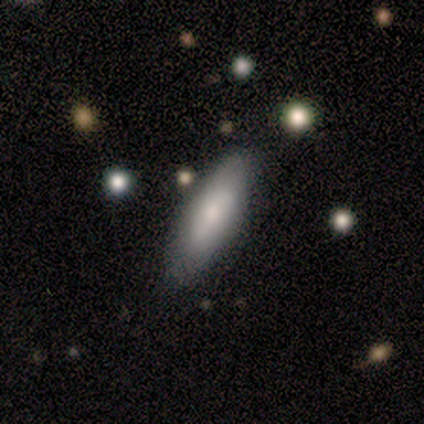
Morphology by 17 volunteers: Smooth or featured? 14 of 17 (82%) said smooth. How rounded? 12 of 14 (86%) said in between. Merging? 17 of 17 (100%) said none.